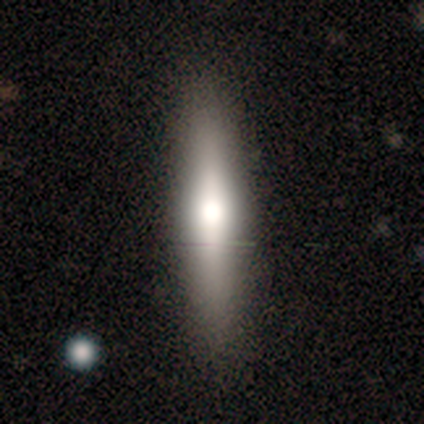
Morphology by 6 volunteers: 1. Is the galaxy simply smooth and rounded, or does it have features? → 33% smooth (tied), 33% featured or disk (tied), 33% star or artifact (tied).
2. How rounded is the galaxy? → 100% cigar-shaped, 0% round, 0% in between.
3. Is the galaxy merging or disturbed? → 75% none, 25% minor disturbance, 0% major disturbance, 0% merger.